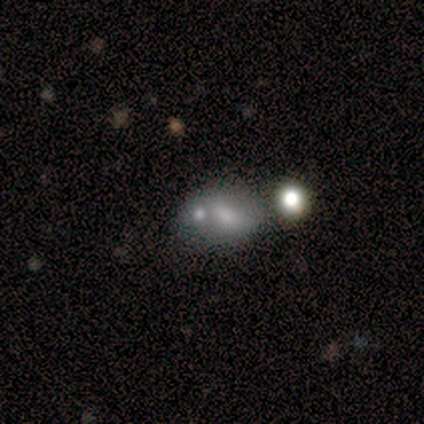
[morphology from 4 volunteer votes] Smooth or featured: smooth — 50% (tied with star or artifact — 50%)
How rounded: in between — 100%
Merging: none — 50% (tied with merger — 50%)